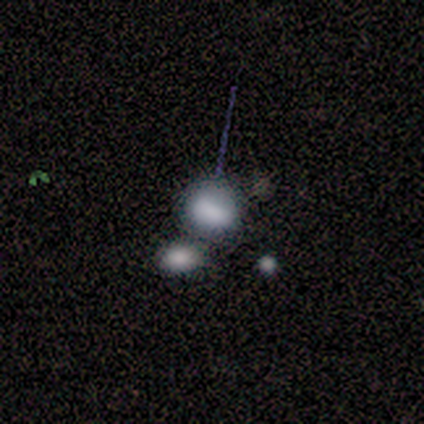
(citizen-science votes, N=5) smooth 100%, featured or disk 0%, star or artifact 0%. Down the decision tree: how rounded — in between (60%); merging — none (80%).